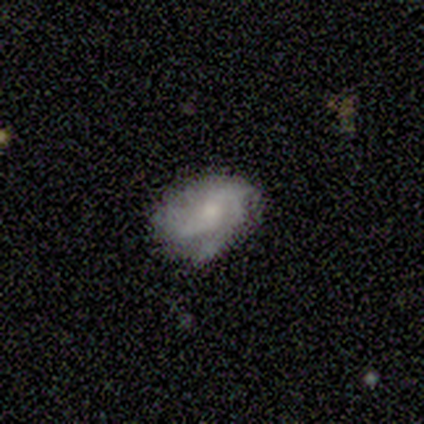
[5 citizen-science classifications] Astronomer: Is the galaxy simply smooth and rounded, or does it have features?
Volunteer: featured or disk — 40%, tied with star or artifact at 40%.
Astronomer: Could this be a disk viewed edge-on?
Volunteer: no — 100%.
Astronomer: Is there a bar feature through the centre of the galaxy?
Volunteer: weak — 50%, tied with no at 50%.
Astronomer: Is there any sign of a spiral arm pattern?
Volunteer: yes — 100%.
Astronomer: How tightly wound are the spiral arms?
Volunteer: medium — 100%.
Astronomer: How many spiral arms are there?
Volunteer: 3 — 50%, tied with can't tell at 50%.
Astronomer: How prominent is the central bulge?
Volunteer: small — 50%, tied with none at 50%.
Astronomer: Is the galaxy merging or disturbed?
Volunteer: none — 100%.